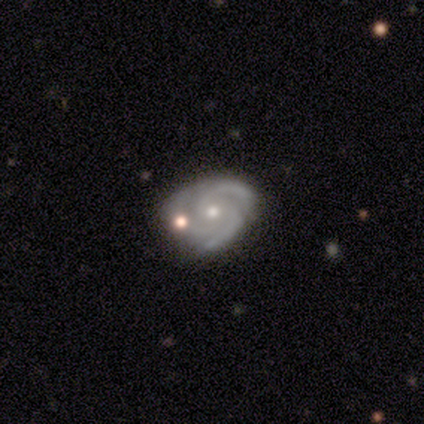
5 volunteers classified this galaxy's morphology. Overall: featured or disk (100%). Edge-on disk: no (100%). Bar: no (80%). Spiral arms: yes (100%). Spiral arm count: 3 (100%). Spiral winding: medium (80%). Bulge size: moderate (80%). Merging: none (100%).